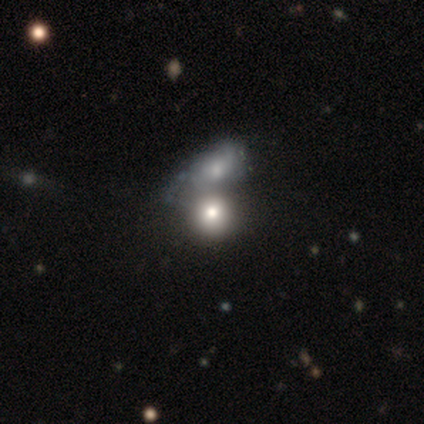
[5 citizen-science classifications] Smooth or featured? 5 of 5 (100%) said smooth. How rounded? 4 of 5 (80%) said round. Merging? 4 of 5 (80%) said merger.